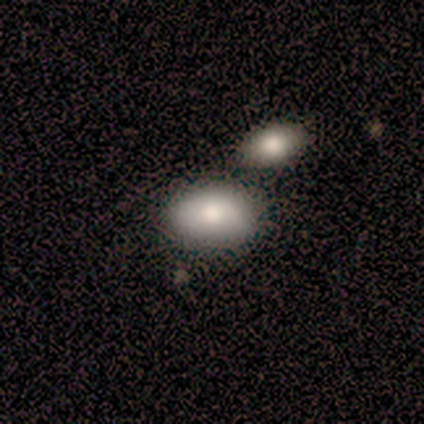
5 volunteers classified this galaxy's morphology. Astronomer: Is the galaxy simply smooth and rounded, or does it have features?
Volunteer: smooth — 60% (runner-up: star or artifact, 40%).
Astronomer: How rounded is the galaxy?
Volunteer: in between — 67%.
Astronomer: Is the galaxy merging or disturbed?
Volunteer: none — 100%.